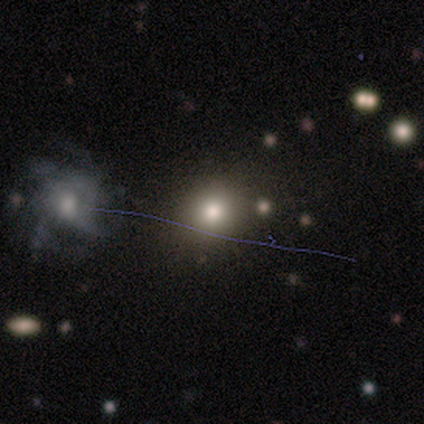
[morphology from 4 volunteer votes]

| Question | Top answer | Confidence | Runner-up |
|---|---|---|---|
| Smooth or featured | star or artifact | 50% | smooth (25%) |